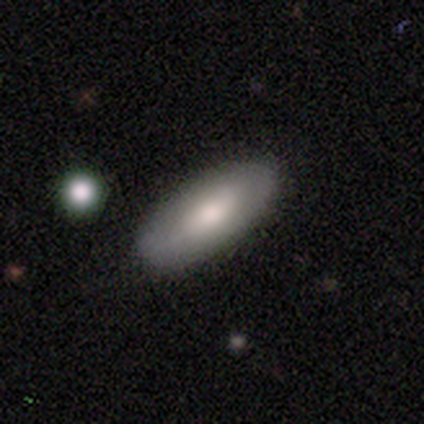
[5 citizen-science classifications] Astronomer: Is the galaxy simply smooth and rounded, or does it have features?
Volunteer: smooth — 80%.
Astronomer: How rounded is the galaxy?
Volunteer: in between — 100%.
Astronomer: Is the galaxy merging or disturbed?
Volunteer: none — 100%.